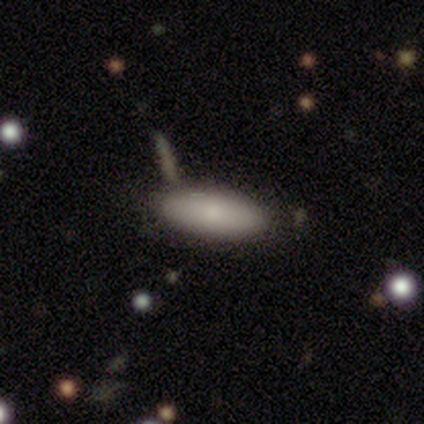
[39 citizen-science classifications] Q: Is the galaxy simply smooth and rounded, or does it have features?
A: smooth — 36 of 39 (92%).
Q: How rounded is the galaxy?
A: in between — 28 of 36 (78%).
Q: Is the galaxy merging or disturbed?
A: none — 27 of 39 (69%).